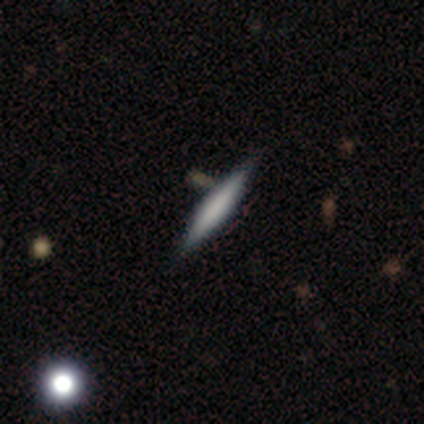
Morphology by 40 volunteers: Q: Smooth or featured?
A: smooth (50%); runner-up: featured or disk (38%)
Q: How rounded?
A: cigar-shaped (95%); runner-up: in between (5%)
Q: Merging?
A: none (89%); runner-up: minor disturbance (6%)